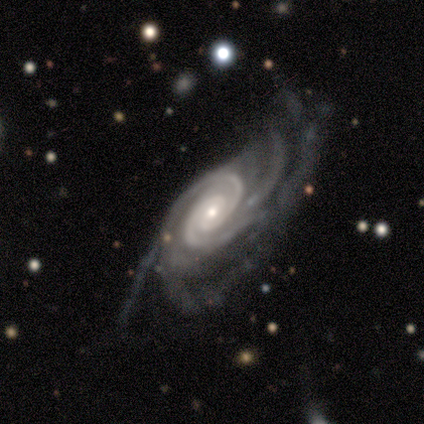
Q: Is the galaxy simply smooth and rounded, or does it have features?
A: featured or disk — 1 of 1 (100%).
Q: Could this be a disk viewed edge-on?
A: no — 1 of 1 (100%).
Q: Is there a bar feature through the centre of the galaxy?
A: no — 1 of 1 (100%).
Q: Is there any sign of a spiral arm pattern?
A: yes — 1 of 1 (100%).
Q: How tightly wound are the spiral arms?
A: medium — 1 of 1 (100%).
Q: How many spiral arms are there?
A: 3 — 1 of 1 (100%).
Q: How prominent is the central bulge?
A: moderate — 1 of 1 (100%).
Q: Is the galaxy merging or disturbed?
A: none — 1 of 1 (100%).